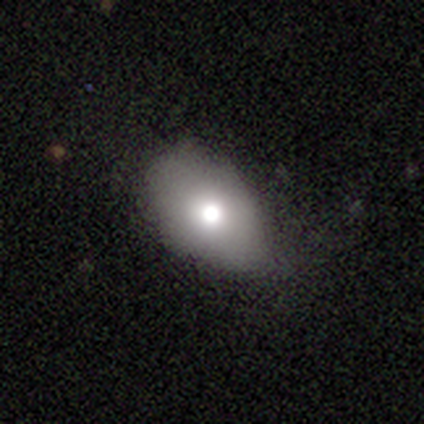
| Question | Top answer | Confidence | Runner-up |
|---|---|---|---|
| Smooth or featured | smooth | 67% | featured or disk (22%) |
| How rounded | in between | 86% | round (14%) |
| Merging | none | 55% | minor disturbance (32%) |